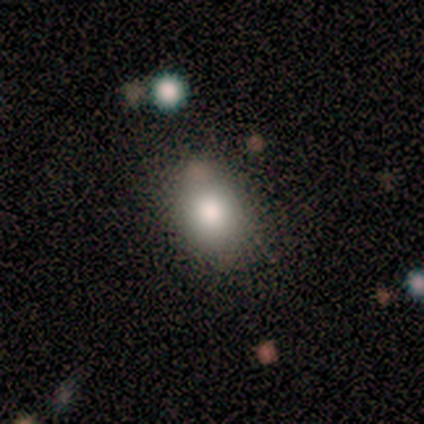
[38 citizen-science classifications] Smooth or featured? 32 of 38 (84%) said smooth. How rounded? 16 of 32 (50%, tied with in between) said round. Merging? 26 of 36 (72%) said none.